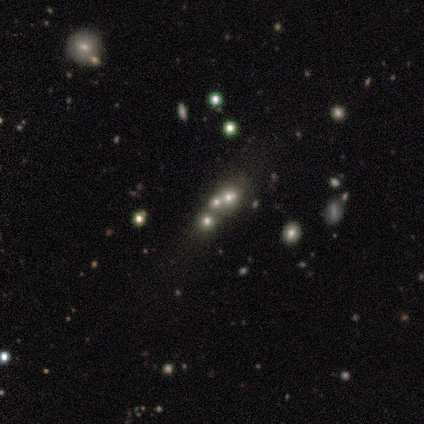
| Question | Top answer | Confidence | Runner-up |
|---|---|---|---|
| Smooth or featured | star or artifact | 75% | smooth (25%) |